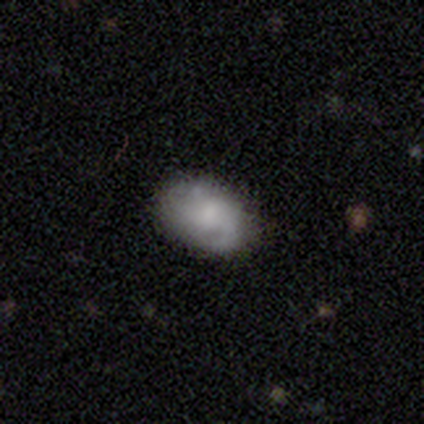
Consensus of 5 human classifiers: This appears to be a featured or disk galaxy (80%) with no bar (75%), 1 (75%) loose (75%) spiral arms (100%) and a small central bulge (75%). Merging: none (100%).